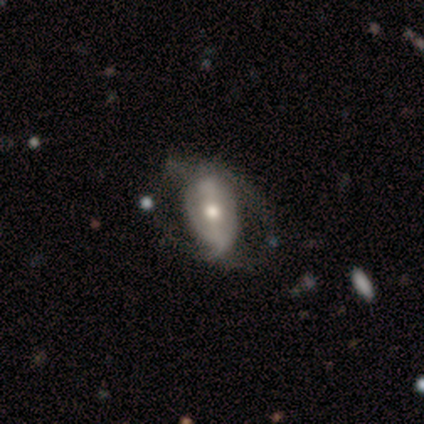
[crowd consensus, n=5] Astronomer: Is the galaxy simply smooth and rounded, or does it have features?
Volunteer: featured or disk — 100%.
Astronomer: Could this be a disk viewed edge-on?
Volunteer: no — 100%.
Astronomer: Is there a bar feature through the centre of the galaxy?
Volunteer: weak — 60% (runner-up: no, 40%).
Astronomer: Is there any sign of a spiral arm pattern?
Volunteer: yes — 60% (runner-up: no, 40%).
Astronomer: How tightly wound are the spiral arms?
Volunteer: tight — 33%, tied with medium and loose at 33%.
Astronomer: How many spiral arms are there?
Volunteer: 1 — 67%.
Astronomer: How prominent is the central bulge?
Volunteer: moderate — 60% (runner-up: small, 40%).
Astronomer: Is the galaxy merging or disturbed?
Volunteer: none — 60% (runner-up: minor disturbance, 40%).